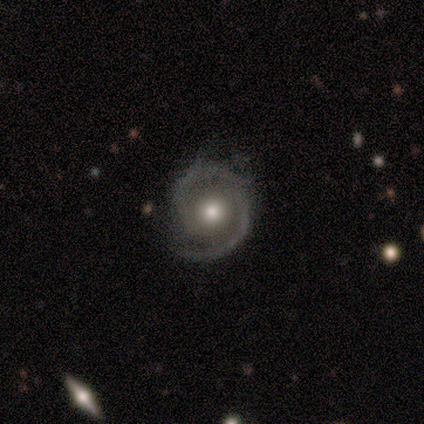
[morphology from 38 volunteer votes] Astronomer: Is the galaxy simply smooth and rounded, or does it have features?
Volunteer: featured or disk — 92%.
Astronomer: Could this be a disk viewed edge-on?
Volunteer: no — 97%.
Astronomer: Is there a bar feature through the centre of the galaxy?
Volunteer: no — 53%.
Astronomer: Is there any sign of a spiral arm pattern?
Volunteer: yes — 94%.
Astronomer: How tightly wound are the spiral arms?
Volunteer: tight — 53% (runner-up: medium, 34%).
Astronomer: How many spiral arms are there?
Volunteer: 2 — 81%.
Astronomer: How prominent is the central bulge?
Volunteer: moderate — 68%.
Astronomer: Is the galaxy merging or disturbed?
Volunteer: none — 81%.